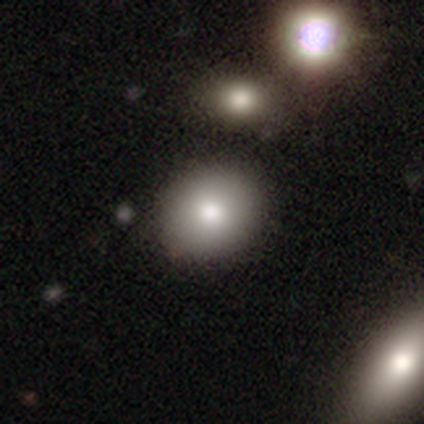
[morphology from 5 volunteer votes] Smooth or featured?
  - smooth: 80% *
  - star or artifact: 20%
  - featured or disk: 0%
How rounded?
  - round: 100% *
  - in between: 0%
  - cigar-shaped: 0%
Merging?
  - none: 100% *
  - minor disturbance: 0%
  - major disturbance: 0%
  - merger: 0%